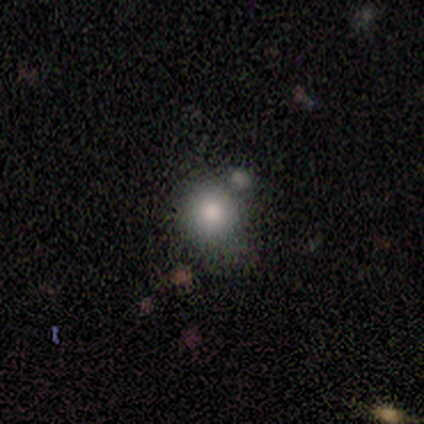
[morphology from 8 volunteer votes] Smooth or featured? smooth (100%)
How rounded? round (75%)
Merging? none (75%)